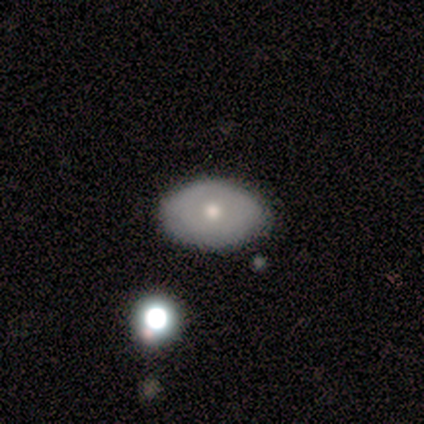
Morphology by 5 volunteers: Smooth or featured? 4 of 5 (80%) said smooth. How rounded? 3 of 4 (75%) said in between. Merging? 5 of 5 (100%) said none.